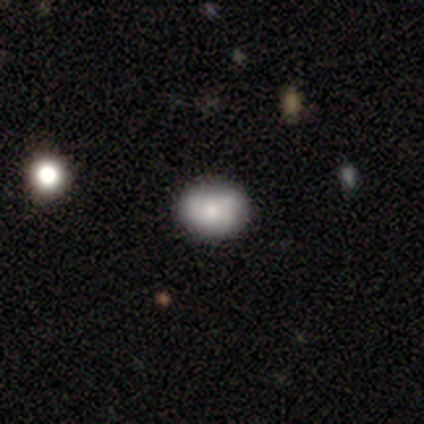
A smooth galaxy with no disk features (81%) that is round (61%). Merging: none (44%).